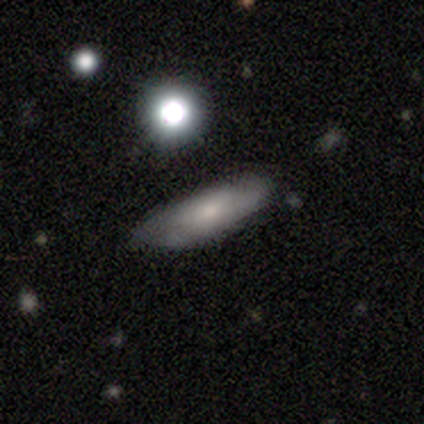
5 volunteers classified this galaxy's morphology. Smooth or featured? 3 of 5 (60%) said featured or disk. Edge-on disk? 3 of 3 (100%) said no. Bar? 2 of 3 (67%) said no. Spiral arms? 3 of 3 (100%) said yes. Spiral winding? 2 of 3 (67%) said loose. Spiral arm count? 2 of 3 (67%) said 2. Bulge size? 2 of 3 (67%) said small. Merging? 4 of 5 (80%) said none.